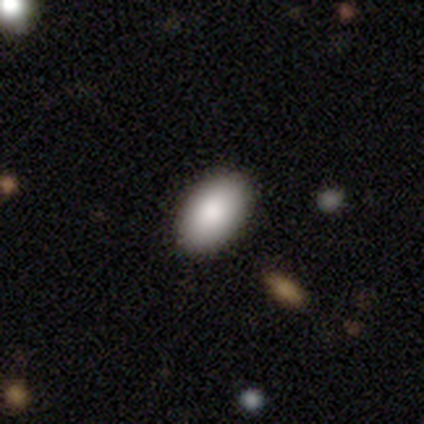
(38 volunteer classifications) Smooth or featured? smooth (95%)
How rounded? in between (97%)
Merging? none (65%)